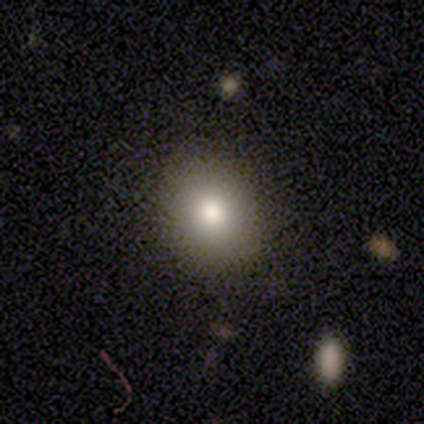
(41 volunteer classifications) A smooth galaxy with no disk features (85%) that is round (74%).

Vote fractions:
- Smooth or featured? smooth: 85% / featured or disk: 7% / star or artifact: 7%
- How rounded? round: 74% / in between: 26% / cigar-shaped: 0%
- Merging? none: 95% / minor disturbance: 3% / major disturbance: 3% / merger: 0%